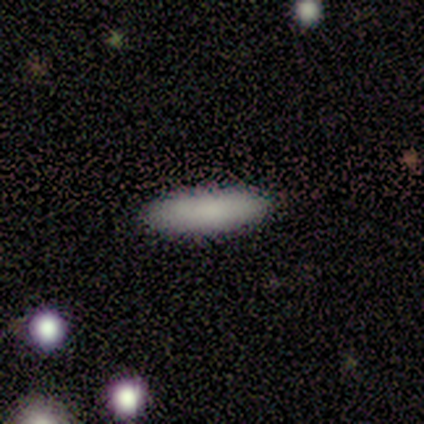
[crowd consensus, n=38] Overall: smooth (82%). How rounded: cigar-shaped (55%; in between 45%). Merging: none (91%).